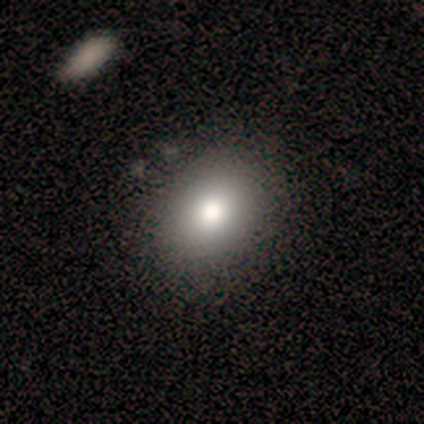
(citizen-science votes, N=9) Q: Smooth or featured?
A: smooth (89%); runner-up: star or artifact (11%)
Q: How rounded?
A: round (50%); tied with: in between (50%)
Q: Merging?
A: none (62%); runner-up: minor disturbance (38%)